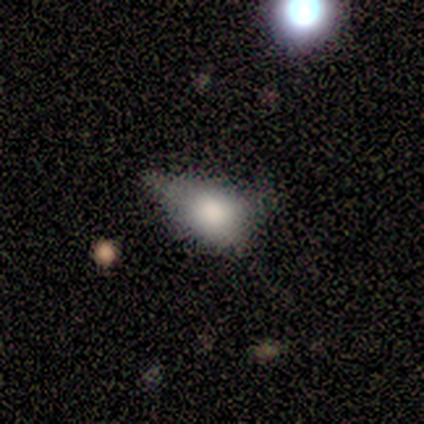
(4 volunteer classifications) smooth-or-featured: smooth: 75% | featured or disk: 25% | star or artifact: 0%
  how-rounded: in between: 100% | round: 0% | cigar-shaped: 0%
  merging: minor disturbance: 50% (tied) | major disturbance: 50% (tied) | none: 0% | merger: 0%